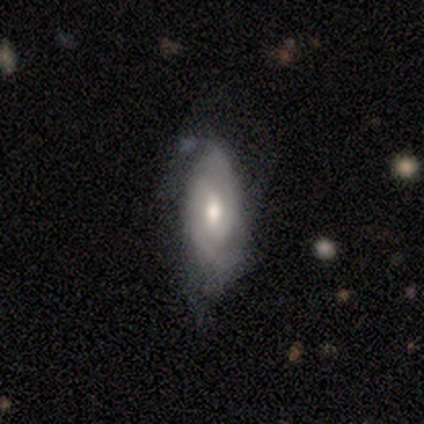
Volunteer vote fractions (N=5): A featured or disk galaxy (60%) with a weak bar (67%), 2 (100%) tight (33%, tied with medium and loose) spiral arms (100%) and a moderate central bulge (67%). Merging: minor disturbance (60%).